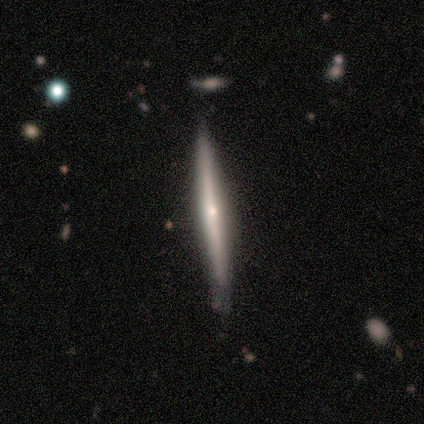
featured or disk 60%, smooth 40%, star or artifact 0%. Down the decision tree: edge-on disk — yes (100%); edge-on bulge — none (67%); merging — none (60%).